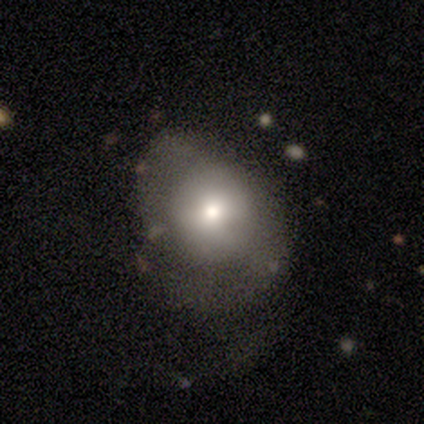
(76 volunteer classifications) A smooth galaxy with no disk features (63%) that is round (67%). Merging: none (37%).